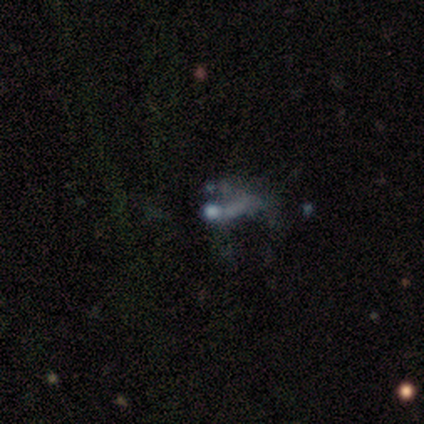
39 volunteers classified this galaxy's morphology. Volunteers were most divided on "bulge size": none: 45%, moderate: 30%, small: 20%, large: 5%, dominant: 0%. More confident: edge-on disk — no (100%); bar — no (100%); spiral arms — no (100%); merging — major disturbance (53%); smooth or featured — featured or disk (51%).